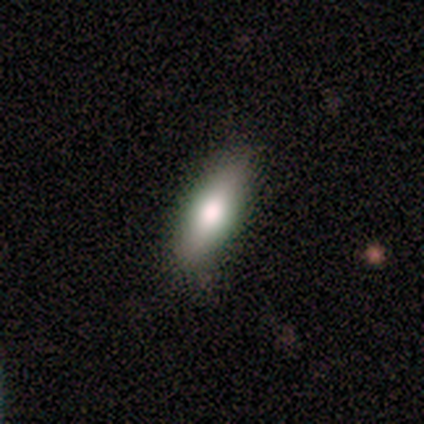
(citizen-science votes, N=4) Smooth or featured? 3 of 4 (75%) said smooth. How rounded? 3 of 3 (100%) said in between. Merging? 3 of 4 (75%) said none.